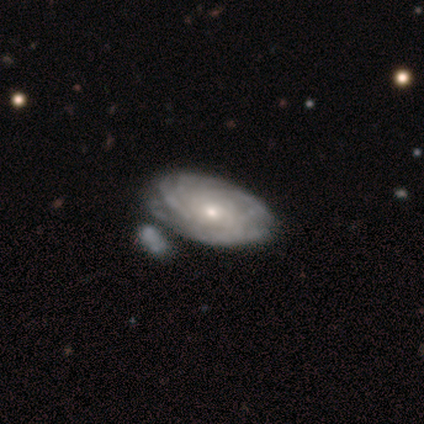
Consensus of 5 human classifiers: Volunteers were most divided on "bar" (2-way tie): weak: 50%, no: 50%, strong: 0%; "spiral arm count" (2-way tie): more than 4: 50%, can't tell: 50%, 1: 0%, 2: 0%, 3: 0%, 4: 0%; "bulge size" (2-way tie): moderate: 50%, small: 50%, dominant: 0%, large: 0%, none: 0%. More confident: edge-on disk — no (100%); spiral arms — yes (100%); merging — none (100%); smooth or featured — featured or disk (80%); spiral winding — tight (50%).